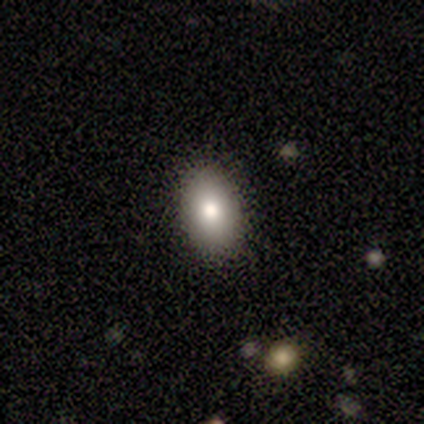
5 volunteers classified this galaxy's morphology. smooth-or-featured: smooth: 100% | featured or disk: 0% | star or artifact: 0%
  how-rounded: in between: 100% | round: 0% | cigar-shaped: 0%
  merging: none: 100% | minor disturbance: 0% | major disturbance: 0% | merger: 0%